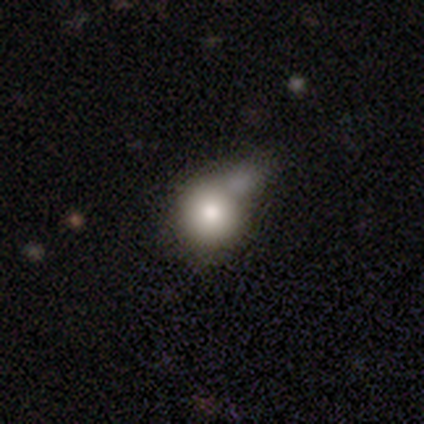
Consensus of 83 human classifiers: A smooth galaxy with no disk features (76%) that is round (84%). Merging: merger (35%).